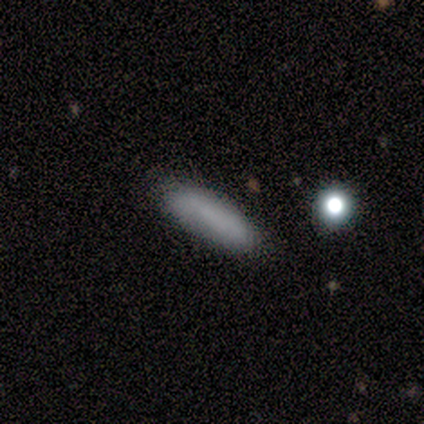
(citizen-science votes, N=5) This appears to be a smooth galaxy with no disk features (100%) that is cigar-shaped (100%). Merging: none (80%).